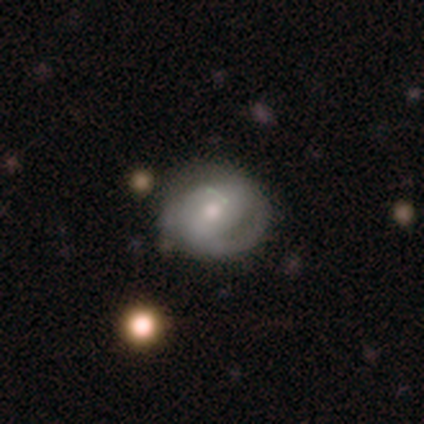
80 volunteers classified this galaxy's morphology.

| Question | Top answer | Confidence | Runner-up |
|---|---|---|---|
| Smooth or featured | featured or disk | 64% | smooth (28%) |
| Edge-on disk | no | 98% | yes (2%) |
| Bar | no | 66% | weak (24%) |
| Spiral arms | yes | 68% | no (32%) |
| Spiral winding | tight | 50% | medium (29%) |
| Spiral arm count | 2 | 65% | 1 (18%) |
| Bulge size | moderate | 54% | small (38%) |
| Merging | none | 36% | minor disturbance (11%) |